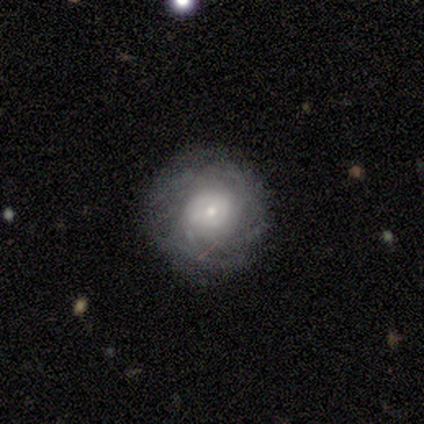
Morphology: type=featured or disk (72%); edge-on=no (100%); bar=no (69%); spiral arms=yes (96%); winding=tight (60%); arm count=can't tell (72%); bulge=small (58%); merging=none (69%).